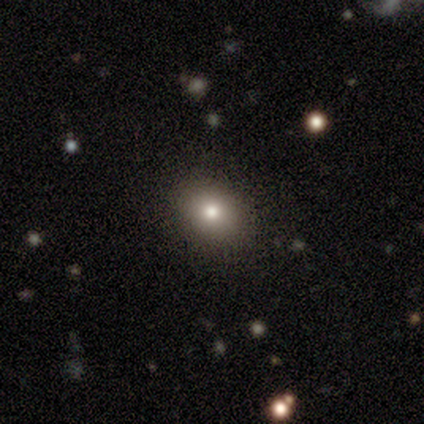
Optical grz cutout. It shows a smooth galaxy with no disk features (60%) that is round (67%). Merging: none (100%).